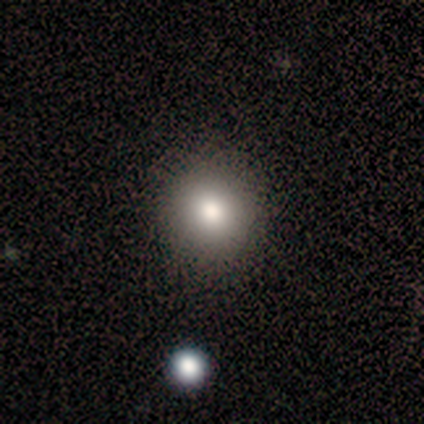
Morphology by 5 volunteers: A smooth galaxy with no disk features (100%) that is round (100%). Merging: none (80%).